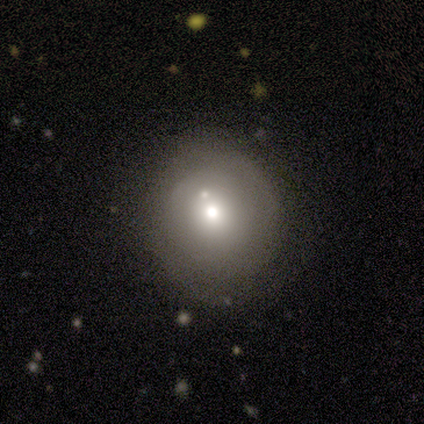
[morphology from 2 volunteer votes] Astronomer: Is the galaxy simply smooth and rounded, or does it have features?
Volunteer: smooth — 100%.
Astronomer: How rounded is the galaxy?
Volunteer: round — 100%.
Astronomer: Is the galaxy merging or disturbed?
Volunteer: none — 50%, tied with minor disturbance at 50%.